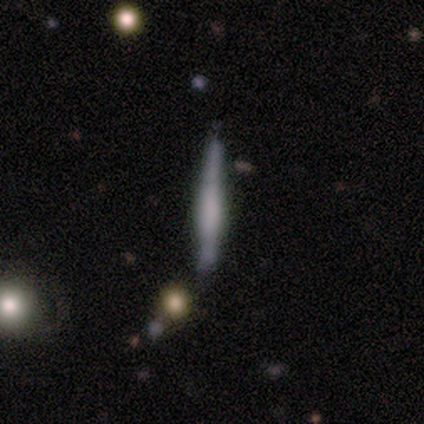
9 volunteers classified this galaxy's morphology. This is possibly a featured or disk galaxy (56%). It is clearly viewed edge-on (100%). Edge-on bulge: clearly boxy (80%). Merging: clearly none (88%).